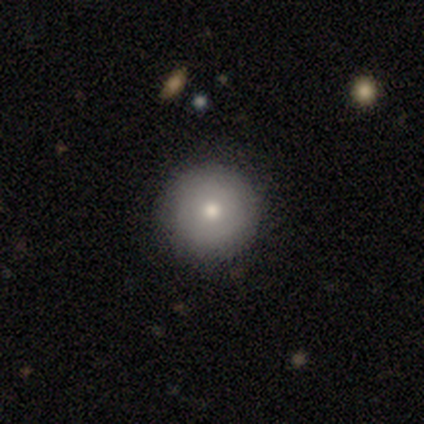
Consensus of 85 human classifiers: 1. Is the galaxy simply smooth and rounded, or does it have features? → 73% smooth, 20% featured or disk, 7% star or artifact.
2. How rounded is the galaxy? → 98% round, 2% in between, 0% cigar-shaped.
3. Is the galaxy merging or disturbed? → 87% none, 10% minor disturbance, 3% major disturbance, 0% merger.